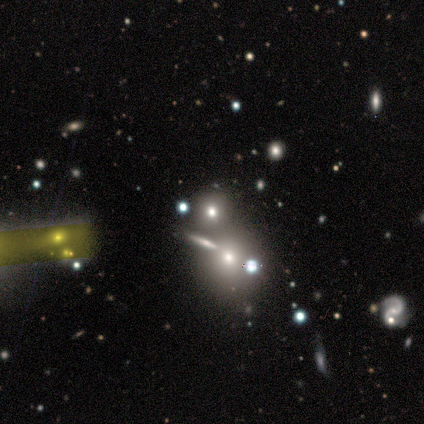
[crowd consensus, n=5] Smooth or featured?
  - smooth: 60% *
  - star or artifact: 40%
  - featured or disk: 0%
How rounded?
  - round: 100% *
  - in between: 0%
  - cigar-shaped: 0%
Merging?
  - none: 67% *
  - minor disturbance: 33%
  - major disturbance: 0%
  - merger: 0%